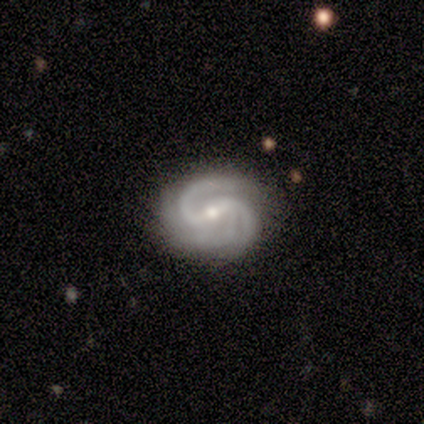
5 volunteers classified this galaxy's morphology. smooth_or_featured: featured or disk (p=1.00)
disk_edge_on: no (p=1.00)
bar: weak (p=0.60) [alt: strong p=0.40]
has_spiral_arms: yes (p=1.00)
spiral_winding: medium (p=0.80) [alt: tight p=0.20]
spiral_arm_count: 3 (p=0.60) [alt: 2 p=0.40]
bulge_size: small (p=0.80) [alt: moderate p=0.20]
merging: minor disturbance (p=0.60) [alt: none p=0.40]